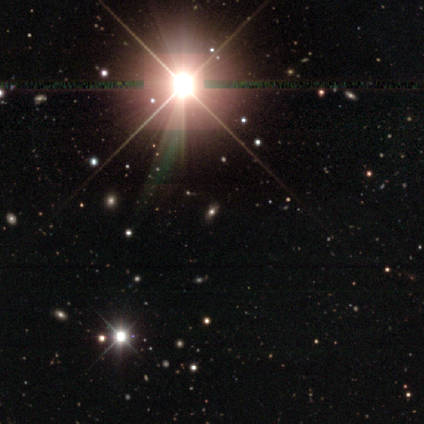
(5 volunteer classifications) Smooth or featured: star or artifact — 60% (smooth — 20%)